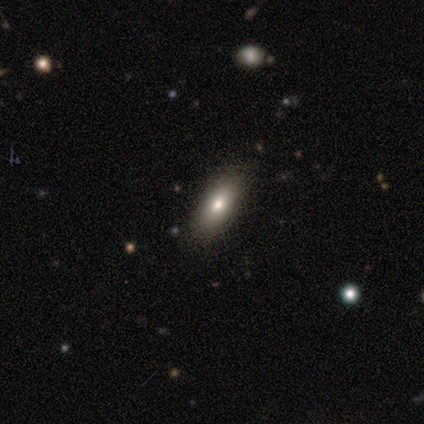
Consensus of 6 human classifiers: Smooth or featured? 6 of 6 (100%) said smooth. How rounded? 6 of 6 (100%) said in between. Merging? 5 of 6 (83%) said none.